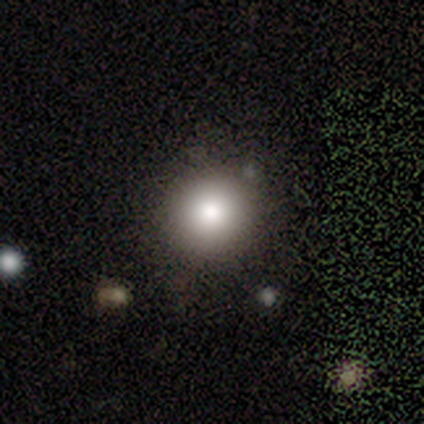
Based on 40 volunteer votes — A smooth galaxy with no disk features (78%) that is round (87%).

Vote fractions:
- Smooth or featured? smooth: 78% / featured or disk: 15% / star or artifact: 8%
- How rounded? round: 87% / in between: 13% / cigar-shaped: 0%
- Merging? none: 70% / major disturbance: 3% / merger: 3% / minor disturbance: 0%